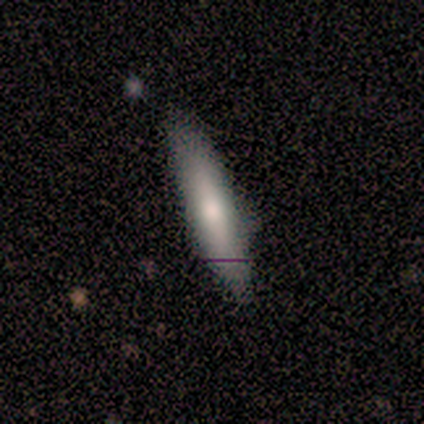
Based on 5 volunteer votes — A smooth galaxy with no disk features (100%) that is cigar-shaped (80%).

Vote fractions:
- Smooth or featured? smooth: 100% / featured or disk: 0% / star or artifact: 0%
- How rounded? cigar-shaped: 80% / in between: 20% / round: 0%
- Merging? none: 80% / minor disturbance: 20% / major disturbance: 0% / merger: 0%